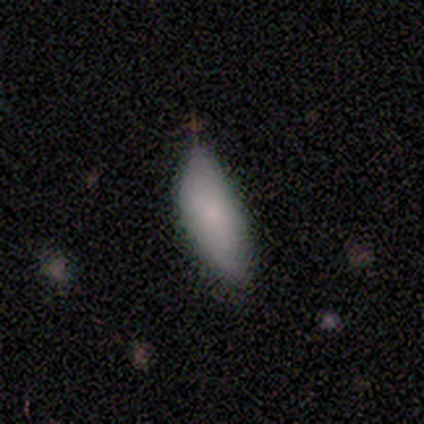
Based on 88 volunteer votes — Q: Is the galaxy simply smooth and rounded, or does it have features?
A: smooth — 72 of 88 (82%).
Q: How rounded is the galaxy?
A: in between — 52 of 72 (72%).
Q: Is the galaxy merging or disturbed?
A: minor disturbance — 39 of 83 (47%).